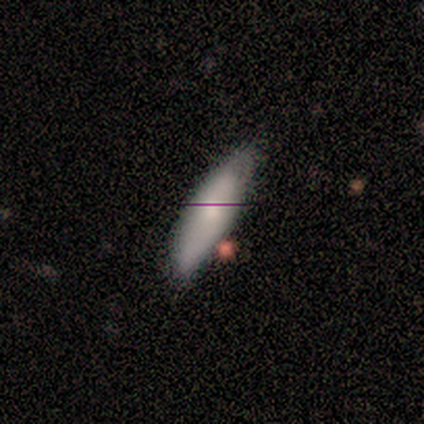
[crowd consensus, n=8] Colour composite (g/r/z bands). It shows a smooth galaxy with no disk features (88%) that is in between round and cigar-shaped (71%). Merging: none (75%).